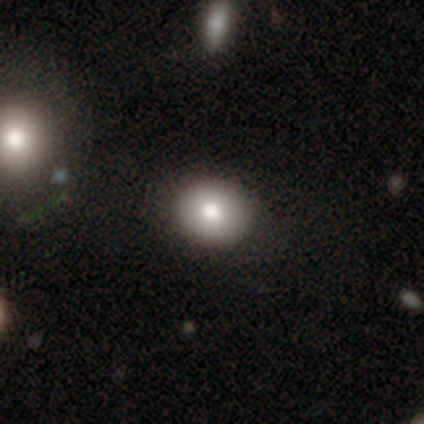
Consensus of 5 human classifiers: Volunteers were most divided on "how rounded": round: 60%, in between: 40%, cigar-shaped: 0%. More confident: smooth or featured — smooth (100%); merging — none (100%).